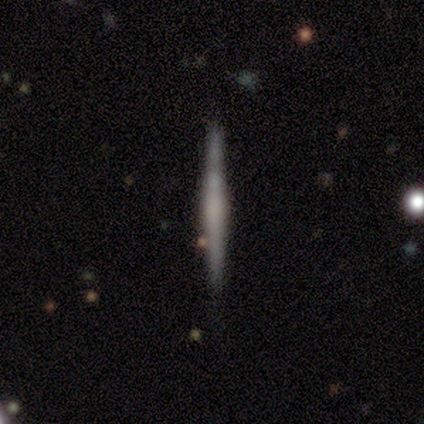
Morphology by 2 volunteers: Volunteers were most divided on "smooth or featured" (2-way tie): featured or disk: 50%, star or artifact: 50%, smooth: 0%. More confident: edge-on disk — yes (100%); edge-on bulge — none (100%); merging — none (100%).